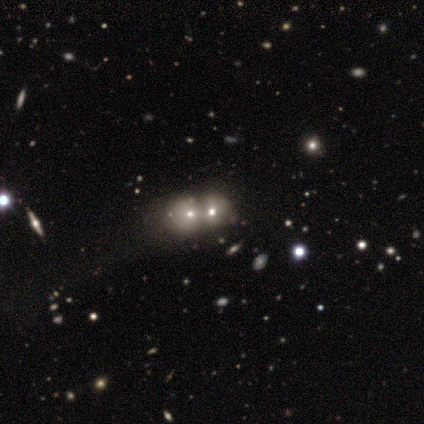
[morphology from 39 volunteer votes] Overall: smooth (44%, tied with featured or disk). How rounded: in between (53%; round 47%). Merging: merger (79%).